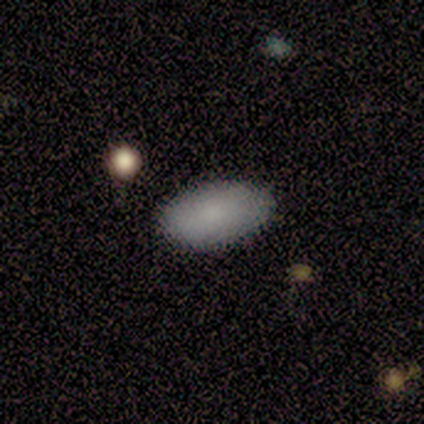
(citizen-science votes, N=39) A smooth galaxy with no disk features (85%) that is in between round and cigar-shaped (97%).

Vote fractions:
- Smooth or featured? smooth: 85% / featured or disk: 13% / star or artifact: 3%
- How rounded? in between: 97% / round: 3% / cigar-shaped: 0%
- Merging? none: 82% / major disturbance: 3% / minor disturbance: 0% / merger: 0%